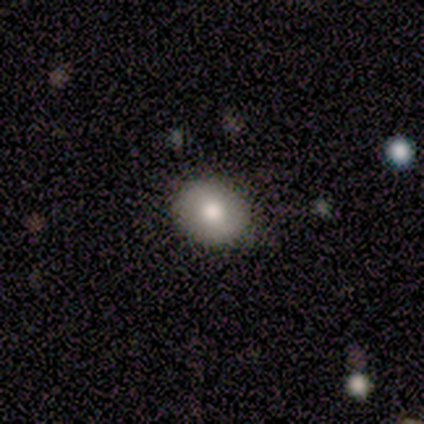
Smooth or featured: smooth — 75% (featured or disk — 25%)
How rounded: round — 67% (in between — 33%)
Merging: none — 88% (minor disturbance — 12%)